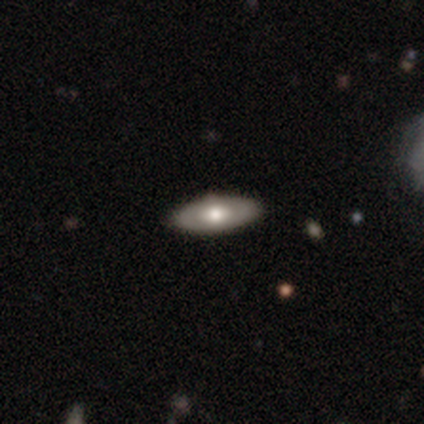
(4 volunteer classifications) Smooth or featured?
  - featured or disk: 75% *
  - smooth: 25%
  - star or artifact: 0%
Edge-on disk?
  - no: 100% *
  - yes: 0%
Bar?
  - no: 100% *
  - strong: 0%
  - weak: 0%
Spiral arms?
  - no: 67% *
  - yes: 33%
Bulge size?
  - large: 33% * (tied)
  - moderate: 33% * (tied)
  - small: 33% * (tied)
  - dominant: 0%
  - none: 0%
Merging?
  - none: 100% *
  - minor disturbance: 0%
  - major disturbance: 0%
  - merger: 0%